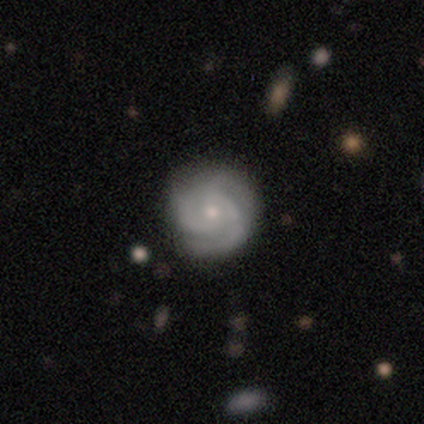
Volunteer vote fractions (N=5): smooth-or-featured: featured or disk: 100% | smooth: 0% | star or artifact: 0%
  disk-edge-on: no: 100% | yes: 0%
    bar: strong: 40% (tied) | no: 40% (tied) | weak: 20%
    has-spiral-arms: yes: 100% | no: 0%
      spiral-winding: medium: 80% | tight: 20% | loose: 0%
      spiral-arm-count: 3: 80% | can't tell: 20% | 1: 0% | 2: 0% | 4: 0% | more than 4: 0%
    bulge-size: small: 100% | dominant: 0% | large: 0% | moderate: 0% | none: 0%
  merging: none: 100% | minor disturbance: 0% | major disturbance: 0% | merger: 0%